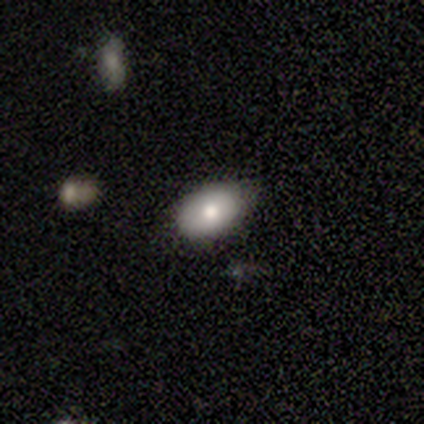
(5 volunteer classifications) Morphology: type=smooth (80%); roundness=in between (100%); merging=none (75%).